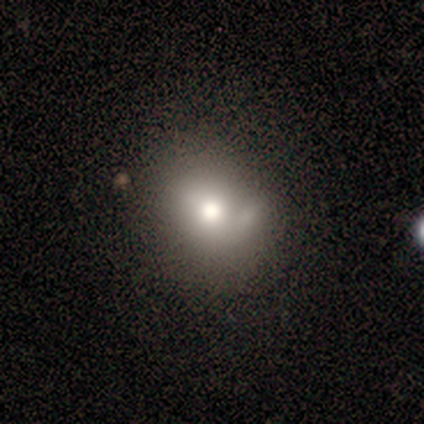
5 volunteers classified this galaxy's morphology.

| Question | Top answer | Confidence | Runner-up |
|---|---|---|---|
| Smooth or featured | smooth | 60% | featured or disk (20%) |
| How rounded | round | 100% | — |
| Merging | none | 75% | minor disturbance (25%) |